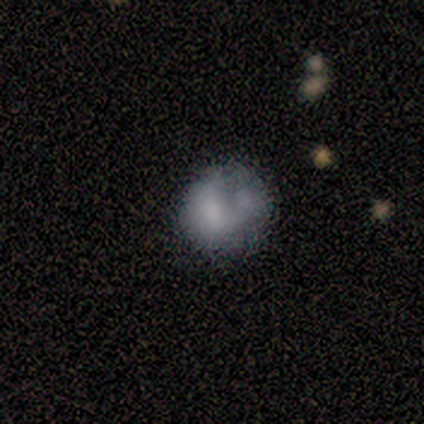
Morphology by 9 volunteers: Smooth or featured: smooth — 56% (featured or disk — 33%)
How rounded: round — 100%
Merging: major disturbance — 38% (none — 25%)